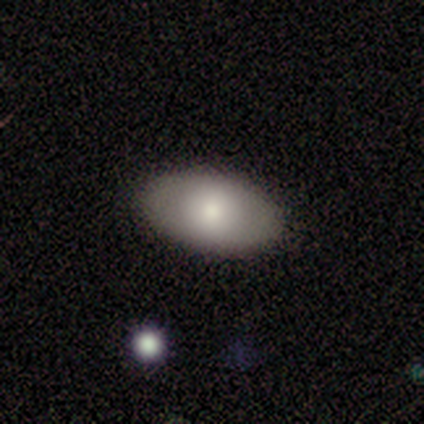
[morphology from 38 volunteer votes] type=smooth (74%); roundness=in between (86%); merging=none (88%).